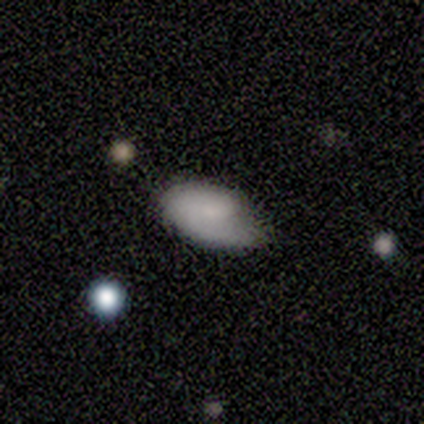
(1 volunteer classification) Overall: smooth (100%). How rounded: in between (100%). Merging: minor disturbance (100%).